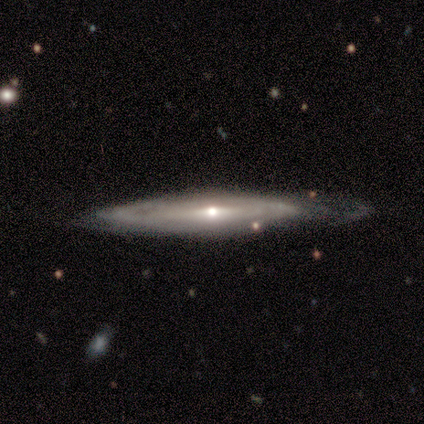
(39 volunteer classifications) A featured or disk galaxy (92%) viewed edge-on (69%) with a rounded central bulge (92%).

Vote fractions:
- Smooth or featured? featured or disk: 92% / star or artifact: 5% / smooth: 3%
- Edge-on disk? yes: 69% / no: 31%
- Edge-on bulge? rounded: 92% / none: 8% / boxy: 0%
- Merging? none: 68% / minor disturbance: 16% / major disturbance: 11% / merger: 5%